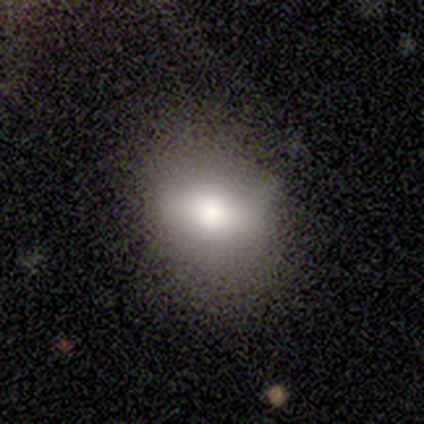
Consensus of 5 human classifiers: Smooth or featured? 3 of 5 (60%) said smooth. How rounded? 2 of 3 (67%) said in between. Merging? 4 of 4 (100%) said none.